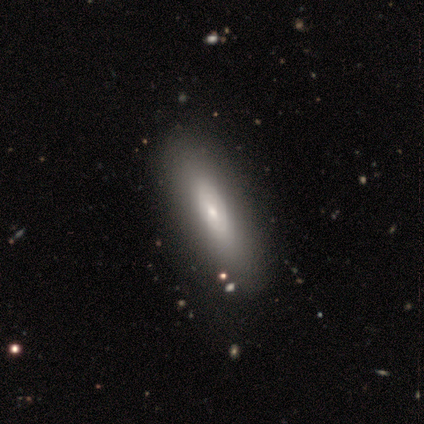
Smooth or featured: smooth — 100%
How rounded: in between — 60% (cigar-shaped — 40%)
Merging: none — 100%